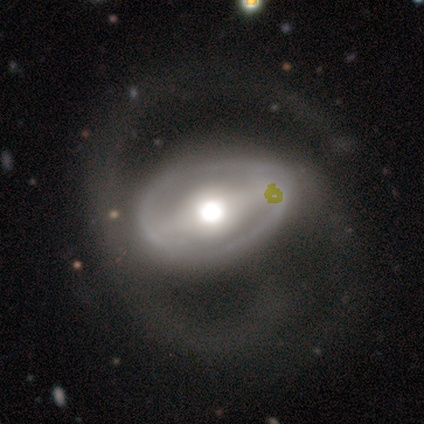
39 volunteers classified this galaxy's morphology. Volunteers were most divided on "merging": none: 32%, major disturbance: 30%, minor disturbance: 14%, merger: 0%. More confident: edge-on disk — no (97%); smooth or featured — featured or disk (74%); spiral arm count — 2 (71%); bar — strong (68%); spiral arms — yes (61%); spiral winding — medium (53%); bulge size — moderate (50%).